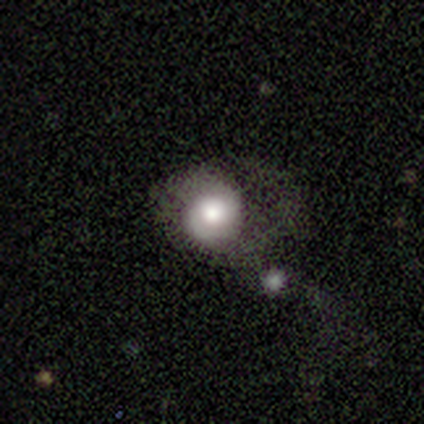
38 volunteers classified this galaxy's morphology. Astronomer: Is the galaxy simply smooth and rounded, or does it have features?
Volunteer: featured or disk — 53% (runner-up: smooth, 45%).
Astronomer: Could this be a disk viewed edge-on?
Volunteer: no — 85%.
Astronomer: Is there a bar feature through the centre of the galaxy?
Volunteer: no — 82%.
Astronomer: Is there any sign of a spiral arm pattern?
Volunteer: yes — 53% (runner-up: no, 47%).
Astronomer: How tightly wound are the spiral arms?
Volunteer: tight — 78%.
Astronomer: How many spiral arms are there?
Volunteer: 1 — 44% (runner-up: 2, 33%).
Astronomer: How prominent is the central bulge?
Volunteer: large — 47% (runner-up: moderate, 41%).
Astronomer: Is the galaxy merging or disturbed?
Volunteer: major disturbance — 43% (runner-up: none, 24%).